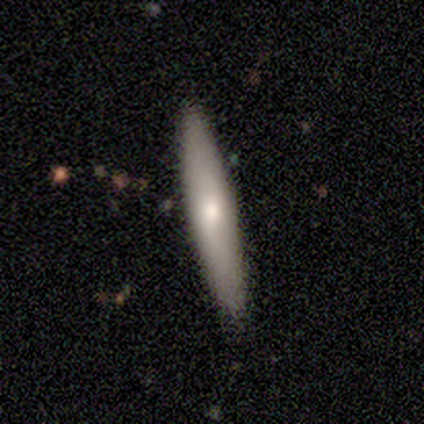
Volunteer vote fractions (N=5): smooth_or_featured: smooth (p=0.60) [alt: featured or disk p=0.40]
how_rounded: cigar-shaped (p=1.00)
merging: none (p=0.80) [alt: minor disturbance p=0.20]